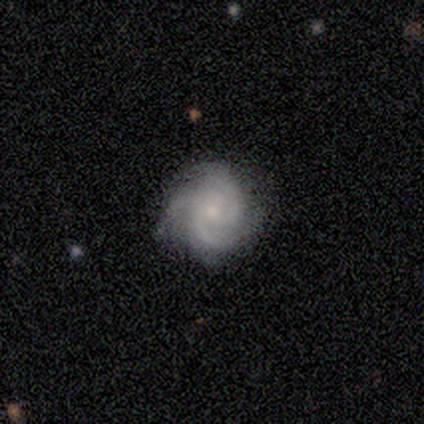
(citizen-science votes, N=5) smooth_or_featured: featured or disk (p=1.00)
disk_edge_on: no (p=1.00)
bar: no (p=0.80) [alt: weak p=0.20]
has_spiral_arms: yes (p=1.00)
spiral_winding: tight (p=0.60) [alt: medium p=0.40]
spiral_arm_count: 3 (p=0.60) [alt: 2 p=0.20]
bulge_size: small (p=1.00)
merging: none (p=1.00)